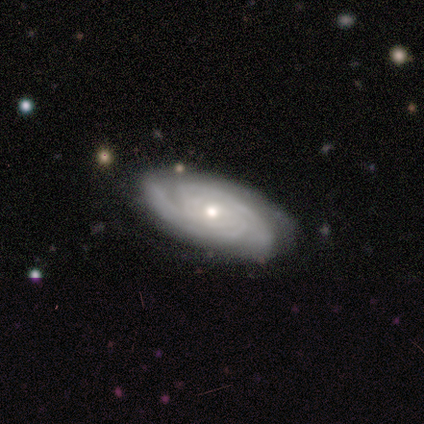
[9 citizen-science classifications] This is clearly a featured or disk galaxy (100%). It is clearly not viewed edge-on (89%). Bar: likely no (75%). Spiral arm pattern: clearly yes (100%). Spiral arm count: marginally 3 (38%). Spiral winding: likely tight (62%). Central bulge: likely small (62%). Merging: likely none (78%).